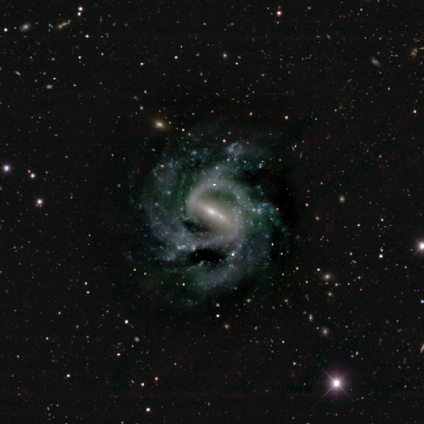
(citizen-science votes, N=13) Smooth or featured? featured or disk (92%)
Edge-on disk? no (92%)
Bar? strong (91%)
Spiral arms? yes (100%)
Spiral winding? medium (73%)
Spiral arm count? 3 (45%)
Bulge size? small (82%)
Merging? none (58%)